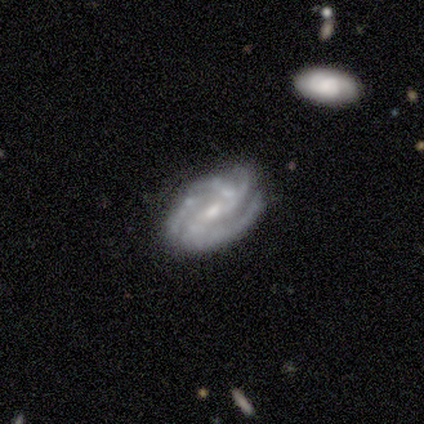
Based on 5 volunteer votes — smooth-or-featured: featured or disk: 80% | smooth: 20% | star or artifact: 0%
  disk-edge-on: no: 75% | yes: 25%
    bar: weak: 67% | no: 33% | strong: 0%
    has-spiral-arms: yes: 100% | no: 0%
      spiral-winding: medium: 67% | tight: 33% | loose: 0%
      spiral-arm-count: 4: 67% | 3: 33% | 1: 0% | 2: 0% | more than 4: 0% | can't tell: 0%
    bulge-size: small: 67% | moderate: 33% | dominant: 0% | large: 0% | none: 0%
  merging: none: 60% | minor disturbance: 20% | merger: 20% | major disturbance: 0%